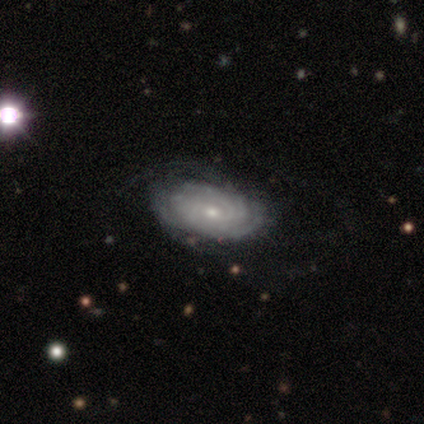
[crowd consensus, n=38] smooth-or-featured: featured or disk: 74% | smooth: 16% | star or artifact: 11%
  disk-edge-on: no: 100% | yes: 0%
    bar: no: 68% | weak: 32% | strong: 0%
    has-spiral-arms: yes: 93% | no: 7%
      spiral-winding: tight: 81% | medium: 19% | loose: 0%
      spiral-arm-count: can't tell: 69% | 2: 12% | 3: 12% | more than 4: 8% | 1: 0% | 4: 0%
    bulge-size: small: 79% | moderate: 18% | large: 4% | dominant: 0% | none: 0%
  merging: none: 62% | minor disturbance: 21% | major disturbance: 18% | merger: 0%